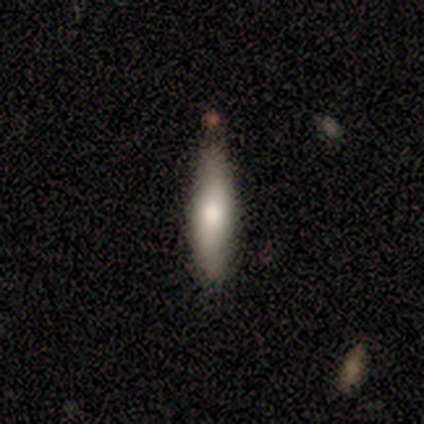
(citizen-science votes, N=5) Volunteers were most divided on "how rounded": cigar-shaped: 60%, in between: 40%, round: 0%. More confident: smooth or featured — smooth (100%); merging — none (80%).